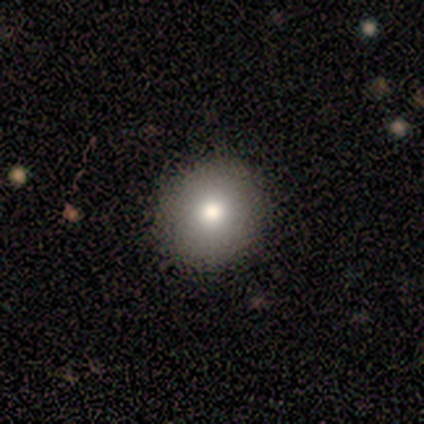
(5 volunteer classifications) A smooth galaxy with no disk features (100%) that is round (60%). Merging: none (60%).